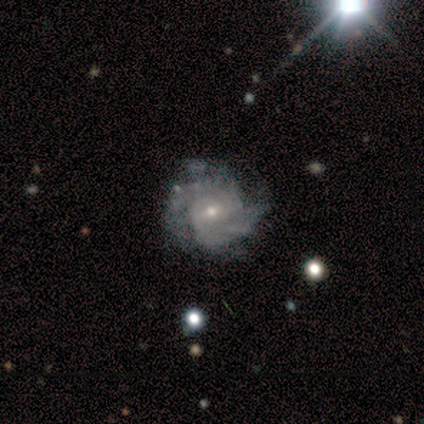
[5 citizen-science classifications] A featured or disk galaxy (80%) with no bar (100%), 4 (67%) medium (67%) spiral arms (75%) and a small central bulge (75%). Merging: none (100%).